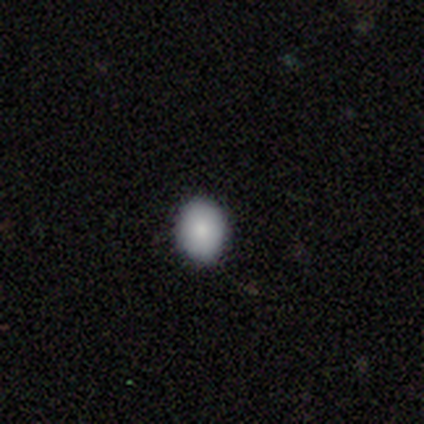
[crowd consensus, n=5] smooth_or_featured: smooth (p=0.80) [alt: star or artifact p=0.20]
how_rounded: in between (p=0.75) [alt: round p=0.25]
merging: none (p=1.00)